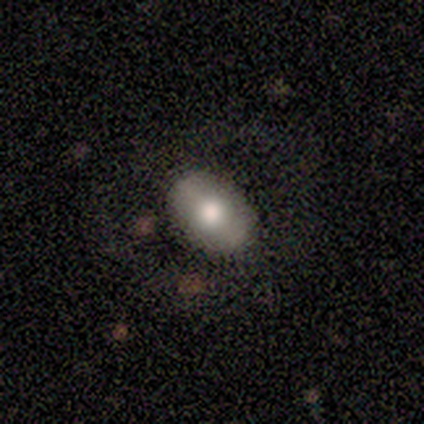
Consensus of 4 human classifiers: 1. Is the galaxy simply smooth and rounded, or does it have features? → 75% smooth, 25% star or artifact, 0% featured or disk.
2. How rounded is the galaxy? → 100% in between, 0% round, 0% cigar-shaped.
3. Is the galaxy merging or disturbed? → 100% none, 0% minor disturbance, 0% major disturbance, 0% merger.